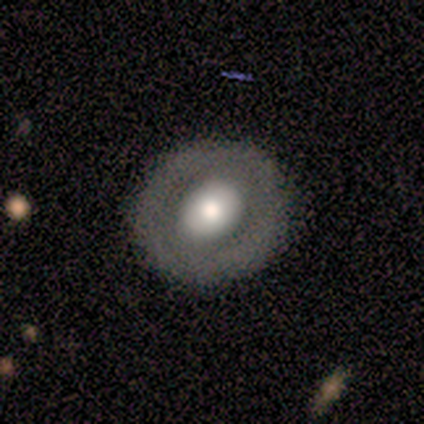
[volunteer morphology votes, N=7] Smooth or featured? smooth (71%)
How rounded? round (80%)
Merging? none (100%)